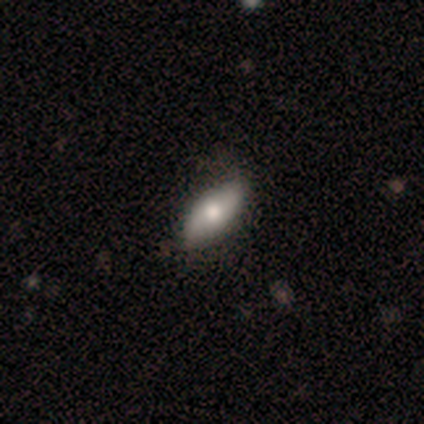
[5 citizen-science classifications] Morphology: type=smooth (60%); roundness=in between (100%); merging=none (60%).